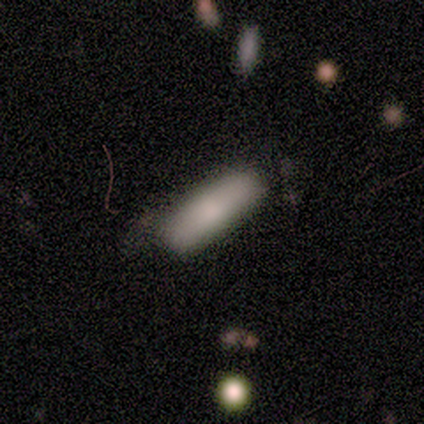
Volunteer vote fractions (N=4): Smooth or featured? 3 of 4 (75%) said smooth. How rounded? 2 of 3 (67%) said in between. Merging? 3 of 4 (75%) said minor disturbance.